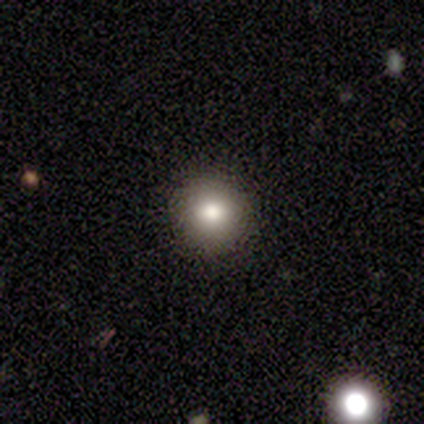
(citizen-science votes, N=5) A smooth galaxy with no disk features (100%) that is round (100%). Merging: none (100%).